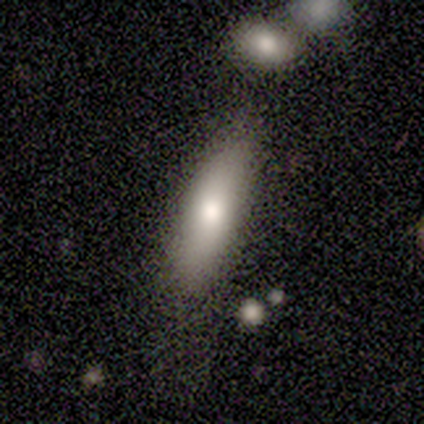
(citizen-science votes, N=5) This is clearly a smooth galaxy (80%). How rounded: likely cigar-shaped (75%). Merging: likely none (75%).